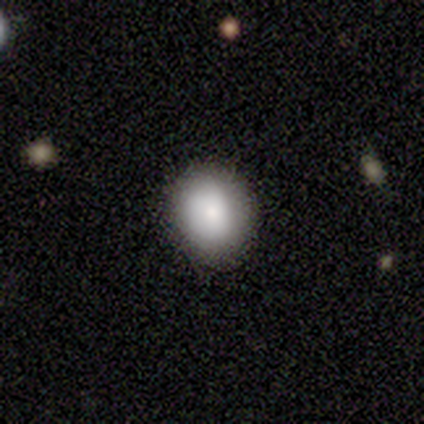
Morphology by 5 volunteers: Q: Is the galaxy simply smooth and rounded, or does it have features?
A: smooth — 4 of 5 (80%).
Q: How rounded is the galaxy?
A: round — 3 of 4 (75%).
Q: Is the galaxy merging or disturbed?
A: none — 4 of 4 (100%).